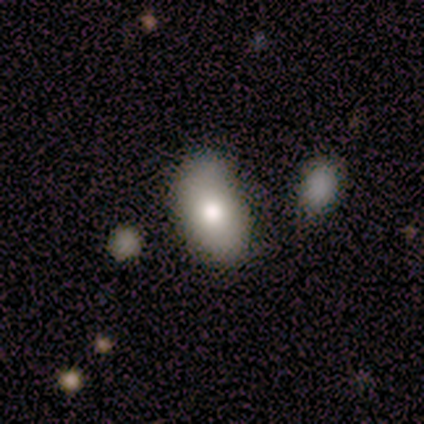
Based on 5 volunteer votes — smooth-or-featured: smooth: 80% | featured or disk: 20% | star or artifact: 0%
  how-rounded: in between: 75% | round: 25% | cigar-shaped: 0%
  merging: none: 80% | minor disturbance: 20% | major disturbance: 0% | merger: 0%